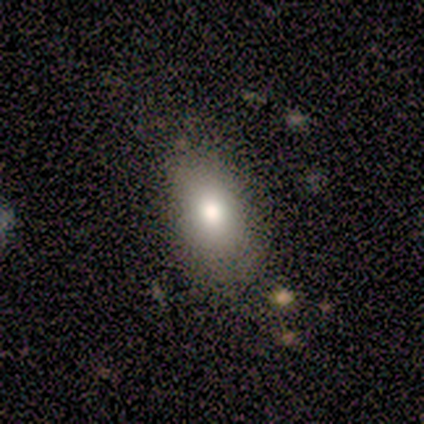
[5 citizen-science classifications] Q: Smooth or featured?
A: smooth (100%)
Q: How rounded?
A: in between (80%); runner-up: round (20%)
Q: Merging?
A: none (60%); runner-up: minor disturbance (40%)